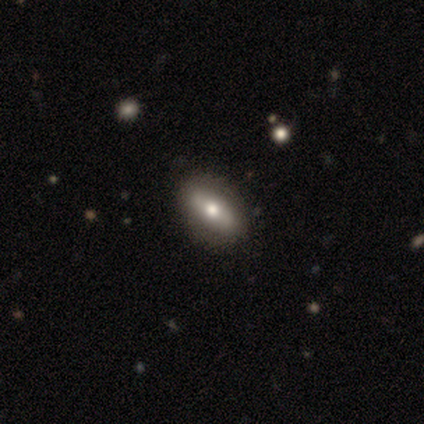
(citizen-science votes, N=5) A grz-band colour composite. It shows a smooth galaxy with no disk features (40%, tied with featured or disk) that is in between round and cigar-shaped (50%, tied with cigar-shaped). Merging: none (100%).